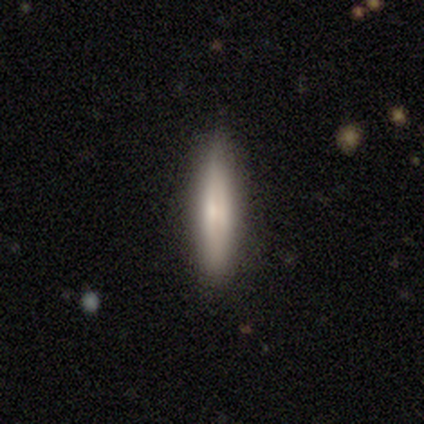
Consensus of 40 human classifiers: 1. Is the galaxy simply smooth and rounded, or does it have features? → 60% smooth, 38% featured or disk, 2% star or artifact.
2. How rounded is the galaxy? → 92% cigar-shaped, 8% in between, 0% round.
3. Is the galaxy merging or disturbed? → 87% none, 10% minor disturbance, 3% major disturbance, 0% merger.